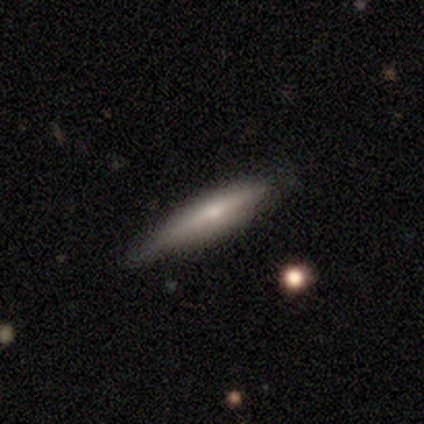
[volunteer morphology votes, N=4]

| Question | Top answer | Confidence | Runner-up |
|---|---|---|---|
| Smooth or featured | featured or disk | 75% | smooth (25%) |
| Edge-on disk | yes | 100% | — |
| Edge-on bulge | rounded | 100% | — |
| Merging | none | 75% | minor disturbance (25%) |